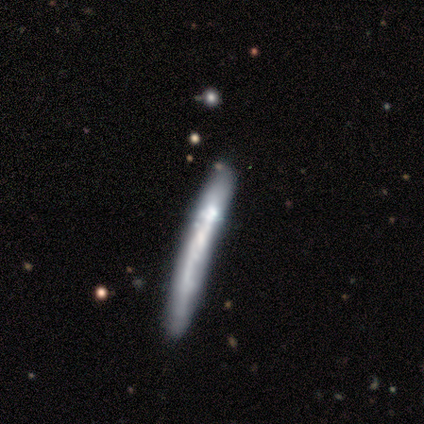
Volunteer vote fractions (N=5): Overall: smooth (60%; featured or disk 40%). How rounded: cigar-shaped (100%). Merging: none (80%).